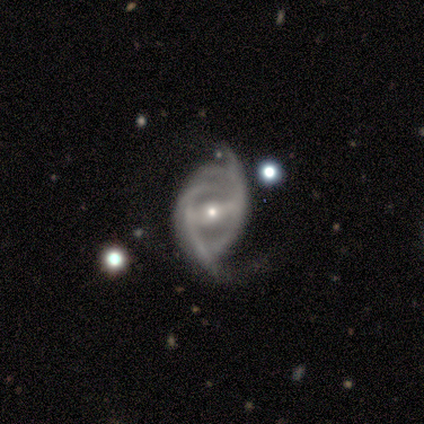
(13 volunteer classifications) Morphology: type=featured or disk (85%); edge-on=no (100%); bar=strong (64%); spiral arms=yes (100%); winding=loose (45%); arm count=2 (36%); bulge=moderate (55%); merging=minor disturbance (55%).